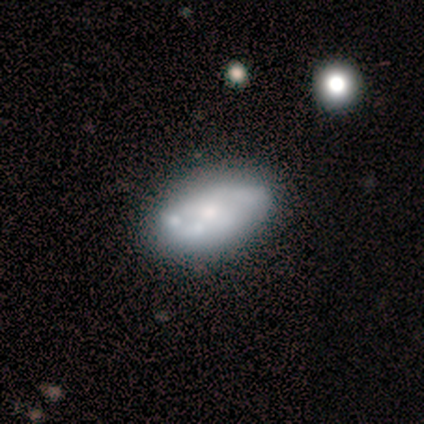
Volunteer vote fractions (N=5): This appears to be a featured or disk galaxy (60%) with no bar (67%), no spiral arms (100%) and a small central bulge (67%). Merging: none (60%).